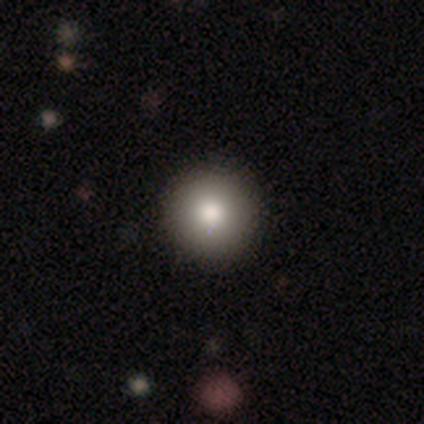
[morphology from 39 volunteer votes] A smooth galaxy with no disk features (92%) that is round (94%).

Vote fractions:
- Smooth or featured? smooth: 92% / featured or disk: 8% / star or artifact: 0%
- How rounded? round: 94% / in between: 3% / cigar-shaped: 3%
- Merging? none: 77% / minor disturbance: 3% / merger: 3% / major disturbance: 0%